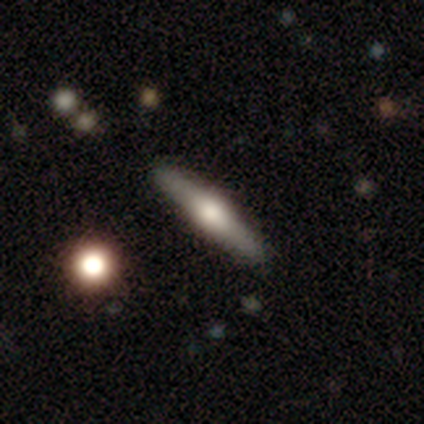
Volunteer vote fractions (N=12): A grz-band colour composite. It shows a smooth galaxy with no disk features (50%) that is cigar-shaped (100%). Merging: none (100%).